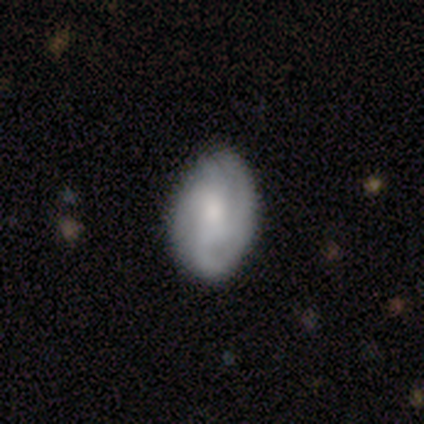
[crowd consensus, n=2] Morphology: type=smooth (100%); roundness=in between (100%); merging=none (50%, tied with major disturbance).